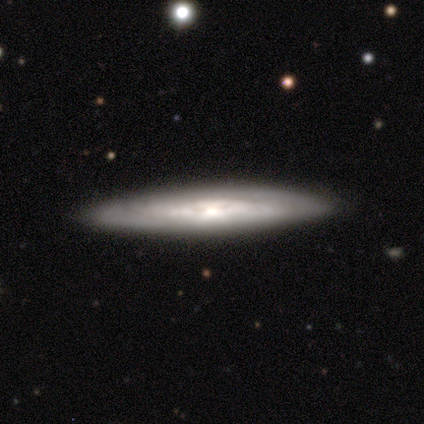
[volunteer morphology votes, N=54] Smooth or featured? 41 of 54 (76%) said featured or disk. Edge-on disk? 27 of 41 (66%) said yes. Edge-on bulge? 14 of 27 (52%) said rounded. Merging? 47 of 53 (89%) said none.